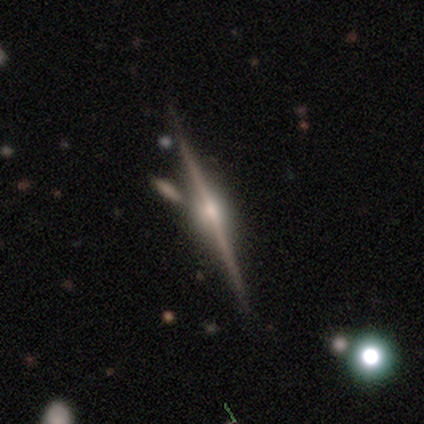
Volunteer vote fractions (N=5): Smooth or featured: featured or disk — 100%
Edge-on disk: yes — 100%
Edge-on bulge: rounded — 100%
Merging: none — 80% (merger — 20%)